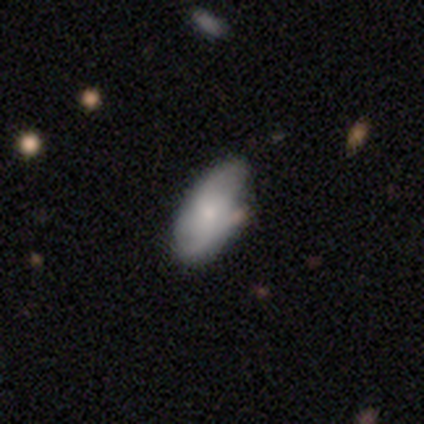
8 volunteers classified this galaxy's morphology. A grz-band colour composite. It shows a smooth galaxy with no disk features (75%) that is in between round and cigar-shaped (100%). Merging: none (50%).